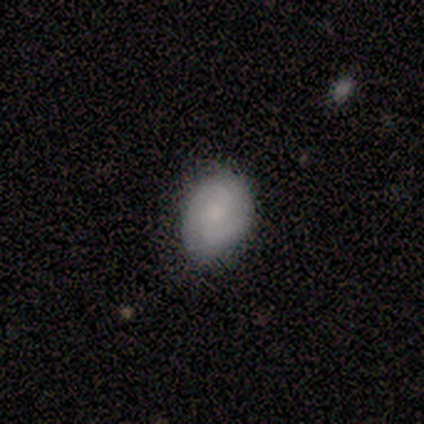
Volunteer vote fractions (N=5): smooth_or_featured: smooth (p=0.60) [alt: featured or disk p=0.40]
how_rounded: in between (p=0.67) [alt: round p=0.33]
merging: none (p=0.80) [alt: minor disturbance p=0.20]